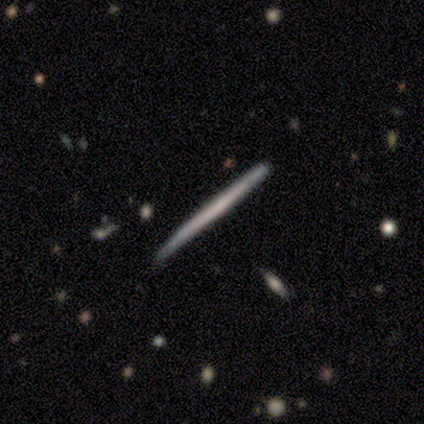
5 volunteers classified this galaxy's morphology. This appears to be a featured or disk galaxy (60%) viewed edge-on (100%) with no central bulge (67%). Merging: minor disturbance (80%).